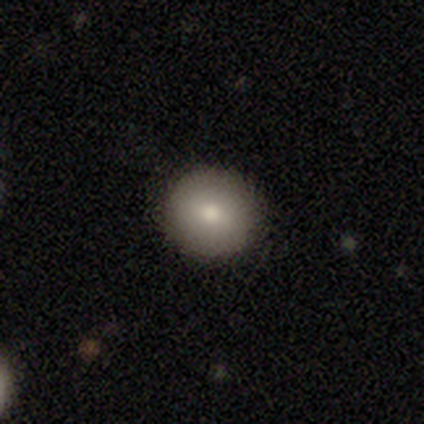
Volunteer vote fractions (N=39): This appears to be a smooth galaxy with no disk features (79%) that is round (100%). Merging: none (92%).